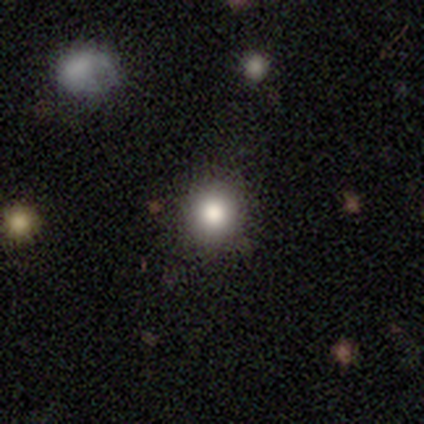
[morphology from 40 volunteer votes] This is likely a smooth galaxy (75%). How rounded: clearly round (100%). Merging: clearly none (97%).